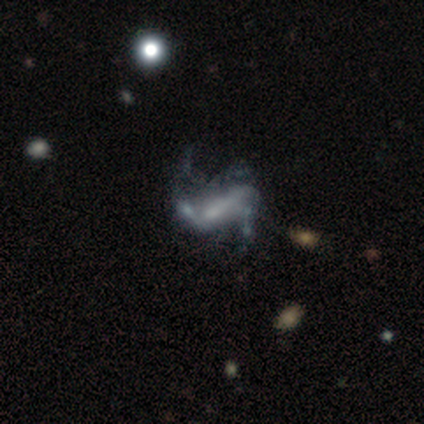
Smooth or featured: featured or disk — 83% (star or artifact — 17%)
Edge-on disk: no — 100%
Bar: strong — 40% (tied with no — 40%)
Spiral arms: yes — 80% (no — 20%)
Spiral winding: loose — 75% (medium — 25%)
Spiral arm count: 2 — 50% (1 — 25%)
Bulge size: small — 60% (large — 20%)
Merging: major disturbance — 80% (merger — 20%)